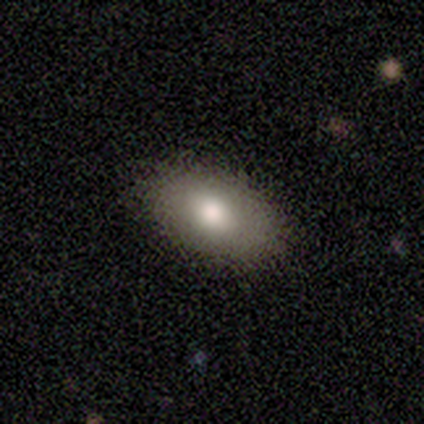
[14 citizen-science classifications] Smooth or featured: smooth — 93% (featured or disk — 7%)
How rounded: in between — 92% (round — 8%)
Merging: none — 93% (minor disturbance — 7%)